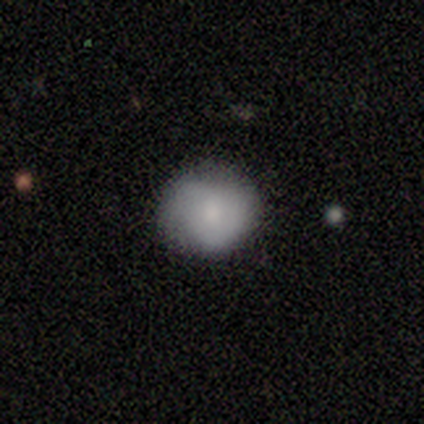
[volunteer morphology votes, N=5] A smooth galaxy with no disk features (100%) that is round (100%).

Vote fractions:
- Smooth or featured? smooth: 100% / featured or disk: 0% / star or artifact: 0%
- How rounded? round: 100% / in between: 0% / cigar-shaped: 0%
- Merging? none: 60% / minor disturbance: 40% / major disturbance: 0% / merger: 0%